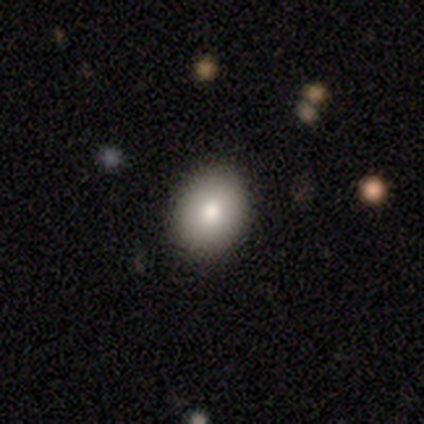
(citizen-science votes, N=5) smooth_or_featured: smooth (p=0.80) [alt: star or artifact p=0.20]
how_rounded: round (p=0.50) [tied with: in between p=0.50]
merging: none (p=1.00)